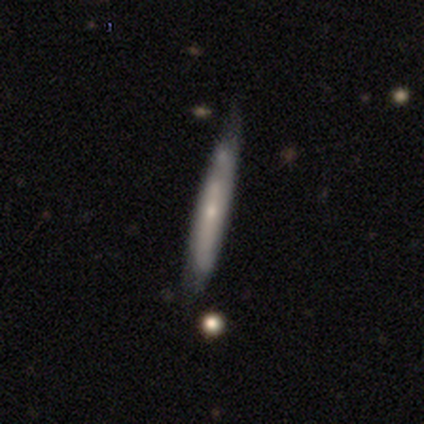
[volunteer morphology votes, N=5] A featured or disk galaxy (60%) viewed edge-on (100%) with no central bulge (67%).

Vote fractions:
- Smooth or featured? featured or disk: 60% / smooth: 40% / star or artifact: 0%
- Edge-on disk? yes: 100% / no: 0%
- Edge-on bulge? none: 67% / boxy: 33% / rounded: 0%
- Merging? minor disturbance: 60% / none: 40% / major disturbance: 0% / merger: 0%